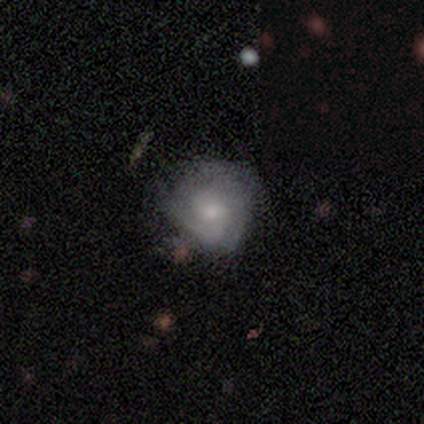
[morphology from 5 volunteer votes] smooth-or-featured: smooth: 60% | featured or disk: 20% | star or artifact: 20%
  how-rounded: in between: 67% | round: 33% | cigar-shaped: 0%
  merging: minor disturbance: 75% | none: 25% | major disturbance: 0% | merger: 0%